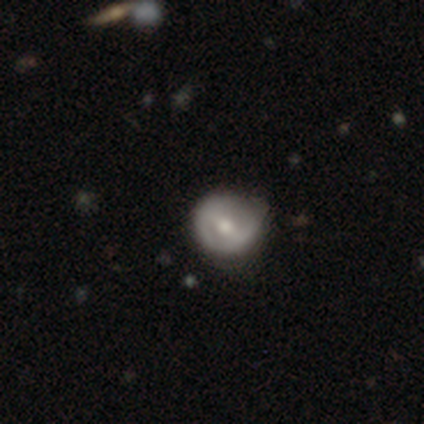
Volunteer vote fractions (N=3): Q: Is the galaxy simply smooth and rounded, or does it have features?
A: featured or disk — 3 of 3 (100%).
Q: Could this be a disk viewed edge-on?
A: no — 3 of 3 (100%).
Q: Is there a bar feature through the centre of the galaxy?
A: weak — 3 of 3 (100%).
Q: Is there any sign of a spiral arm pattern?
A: yes — 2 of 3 (67%).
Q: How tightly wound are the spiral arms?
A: medium — 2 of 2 (100%).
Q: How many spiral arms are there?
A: can't tell — 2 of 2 (100%).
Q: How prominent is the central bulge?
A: moderate — 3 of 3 (100%).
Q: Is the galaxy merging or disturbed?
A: none — 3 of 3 (100%).